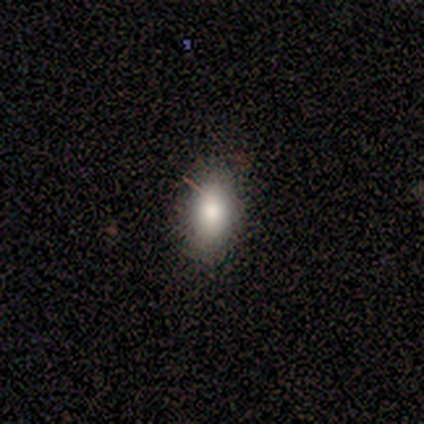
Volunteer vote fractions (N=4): Q: Smooth or featured?
A: smooth (75%); runner-up: star or artifact (25%)
Q: How rounded?
A: in between (67%); runner-up: cigar-shaped (33%)
Q: Merging?
A: none (100%)